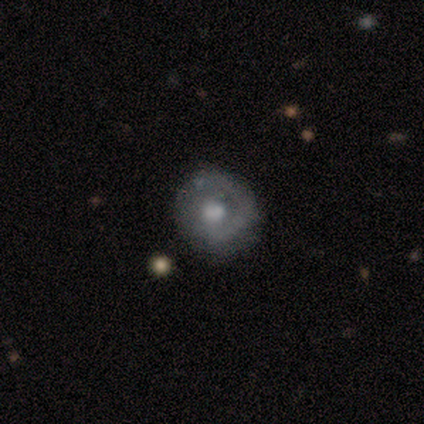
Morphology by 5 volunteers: A featured or disk galaxy (60%) with a weak bar (67%), 1 (67%) medium (67%) spiral arms (100%) and a moderate central bulge (67%).

Vote fractions:
- Smooth or featured? featured or disk: 60% / smooth: 20% / star or artifact: 20%
- Edge-on disk? no: 100% / yes: 0%
- Bar? weak: 67% / strong: 33% / no: 0%
- Spiral arms? yes: 100% / no: 0%
- Spiral winding? medium: 67% / tight: 33% / loose: 0%
- Spiral arm count? 1: 67% / 2: 33% / 3: 0% / 4: 0% / more than 4: 0% / can't tell: 0%
- Bulge size? moderate: 67% / large: 33% / dominant: 0% / small: 0% / none: 0%
- Merging? none: 100% / minor disturbance: 0% / major disturbance: 0% / merger: 0%